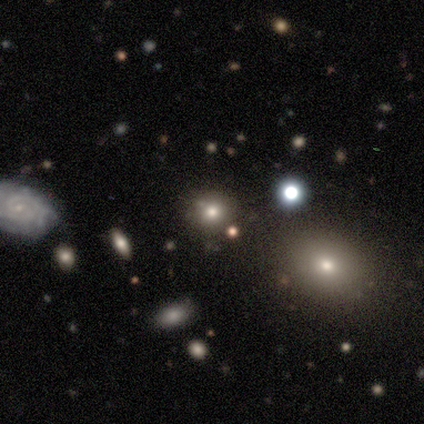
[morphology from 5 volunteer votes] Smooth or featured? 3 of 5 (60%) said smooth. How rounded? 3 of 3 (100%) said round. Merging? 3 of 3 (100%) said none.